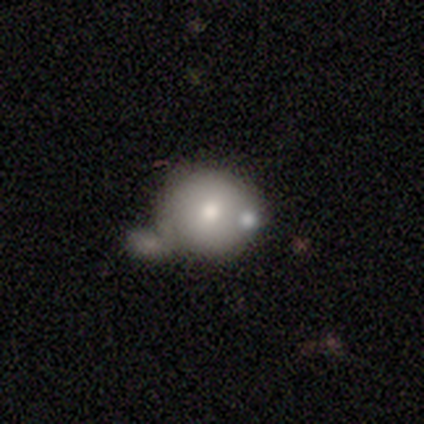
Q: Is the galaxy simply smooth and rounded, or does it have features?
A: smooth — 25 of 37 (68%).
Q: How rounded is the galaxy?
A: round — 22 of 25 (88%).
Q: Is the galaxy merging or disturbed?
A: merger — 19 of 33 (58%).